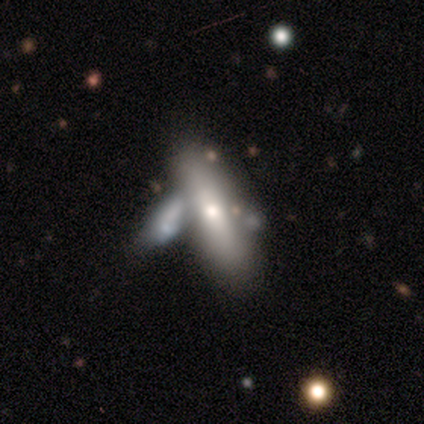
Morphology: type=smooth (59%); roundness=in between (60%); merging=merger (68%).